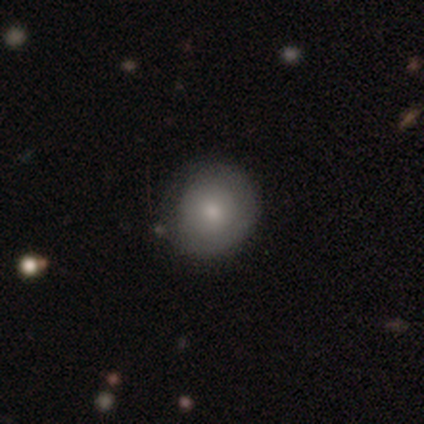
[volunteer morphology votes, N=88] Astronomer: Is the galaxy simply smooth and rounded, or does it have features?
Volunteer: smooth — 83%.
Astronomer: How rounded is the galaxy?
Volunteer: round — 93%.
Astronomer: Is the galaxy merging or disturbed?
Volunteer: none — 83%.